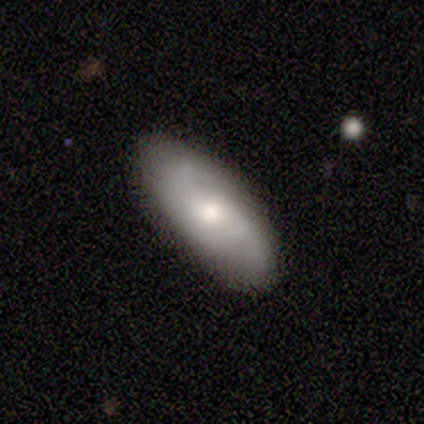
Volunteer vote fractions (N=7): This is possibly a featured or disk galaxy (57%). It is clearly not viewed edge-on (100%). Bar: clearly no (100%). Spiral arm pattern: clearly yes (100%). Spiral arm count: possibly 2 (50%, tied with can't tell). Spiral winding: likely medium (75%). Central bulge: possibly moderate (50%, tied with small). Merging: likely none (71%).